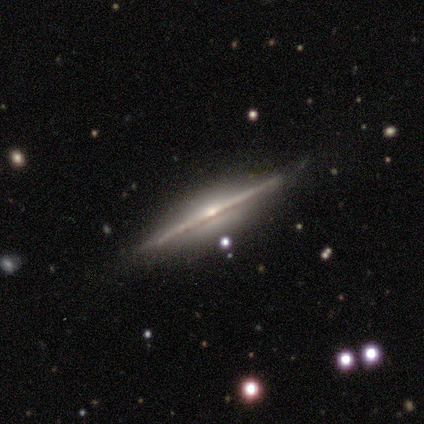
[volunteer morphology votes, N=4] Smooth or featured?
  - featured or disk: 100% *
  - smooth: 0%
  - star or artifact: 0%
Edge-on disk?
  - yes: 100% *
  - no: 0%
Edge-on bulge?
  - rounded: 100% *
  - boxy: 0%
  - none: 0%
Merging?
  - none: 100% *
  - minor disturbance: 0%
  - major disturbance: 0%
  - merger: 0%